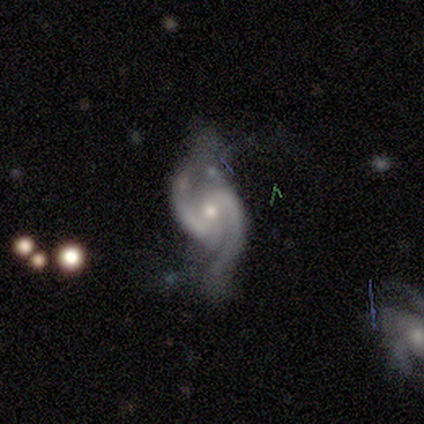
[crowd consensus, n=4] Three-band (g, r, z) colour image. It shows a featured or disk galaxy (75%) with no bar (100%), 2 (67%) loose (67%) spiral arms (100%) and a moderate central bulge (100%). Merging: none (67%).